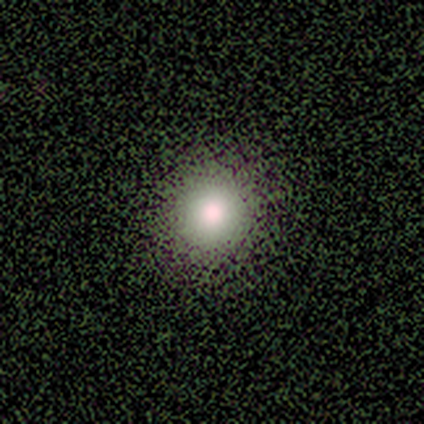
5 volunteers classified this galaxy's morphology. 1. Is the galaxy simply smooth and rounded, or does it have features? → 100% smooth, 0% featured or disk, 0% star or artifact.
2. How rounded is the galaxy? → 100% round, 0% in between, 0% cigar-shaped.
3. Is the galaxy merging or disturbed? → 100% none, 0% minor disturbance, 0% major disturbance, 0% merger.